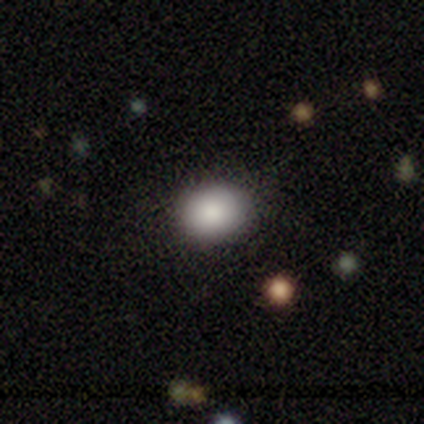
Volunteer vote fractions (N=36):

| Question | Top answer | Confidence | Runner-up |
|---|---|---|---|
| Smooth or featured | smooth | 78% | featured or disk (14%) |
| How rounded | round | 68% | in between (32%) |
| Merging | none | 85% | minor disturbance (15%) |